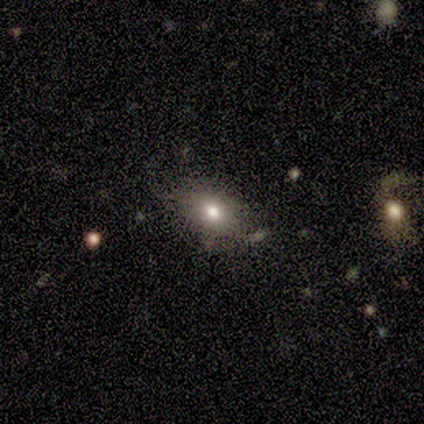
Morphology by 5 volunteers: smooth-or-featured: smooth: 60% | featured or disk: 20% | star or artifact: 20%
  how-rounded: in between: 100% | round: 0% | cigar-shaped: 0%
  merging: none: 75% | minor disturbance: 25% | major disturbance: 0% | merger: 0%